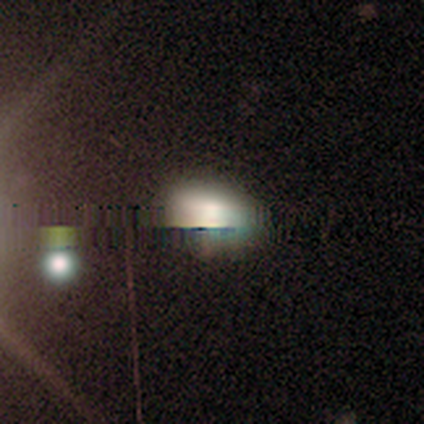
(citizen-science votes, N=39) Q: Smooth or featured?
A: smooth (56%); runner-up: star or artifact (41%)
Q: How rounded?
A: in between (64%); runner-up: round (36%)
Q: Merging?
A: none (83%); runner-up: major disturbance (13%)